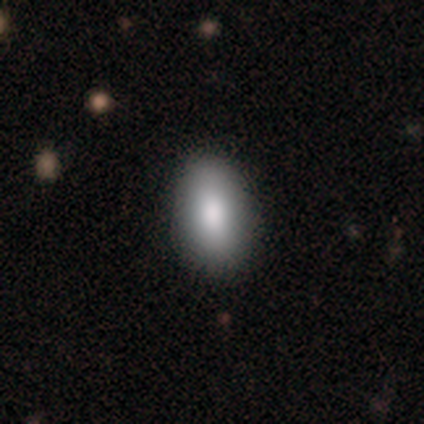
Smooth or featured? 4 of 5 (80%) said smooth. How rounded? 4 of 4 (100%) said in between. Merging? 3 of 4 (75%) said none.